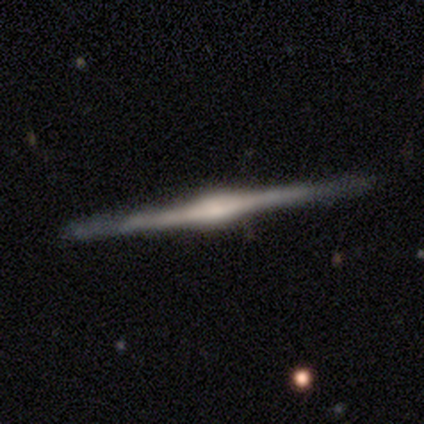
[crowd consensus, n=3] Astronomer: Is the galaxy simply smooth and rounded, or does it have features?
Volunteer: featured or disk — 100%.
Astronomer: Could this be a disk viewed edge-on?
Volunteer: yes — 100%.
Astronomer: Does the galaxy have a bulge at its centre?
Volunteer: rounded — 100%.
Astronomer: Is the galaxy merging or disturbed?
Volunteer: none — 100%.